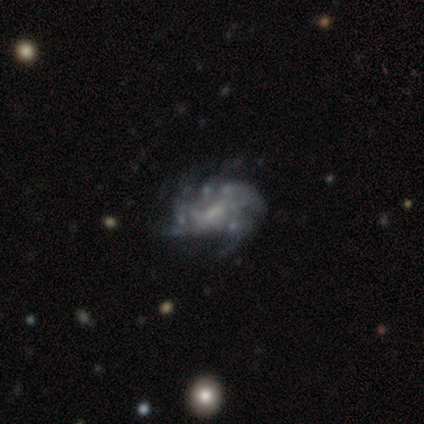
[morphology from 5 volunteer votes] Volunteers were most divided on "bar" (2-way tie): strong: 40%, weak: 40%, no: 20%. Remaining: smooth or featured — featured or disk (100%); edge-on disk — no (100%); spiral arms — yes (80%); spiral winding — medium (75%); merging — none (60%); spiral arm count — can't tell (50%); bulge size — small (40%).